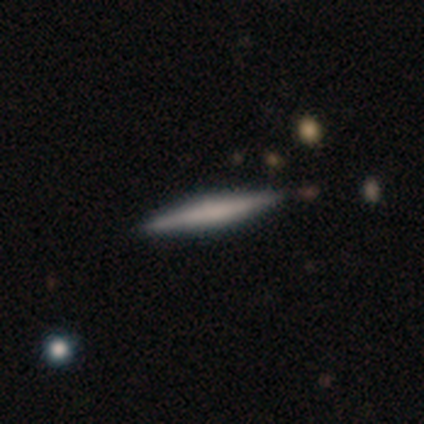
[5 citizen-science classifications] Overall: smooth (60%; featured or disk 20%). How rounded: cigar-shaped (100%). Merging: none (100%).